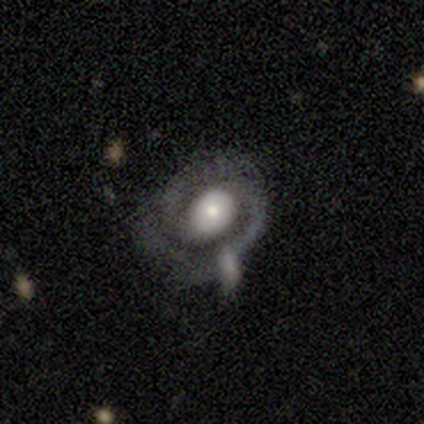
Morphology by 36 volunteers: A featured or disk galaxy (89%) with no bar (66%), 2 (82%) tight (50%) spiral arms (88%) and a large central bulge (44%). Merging: none (68%).